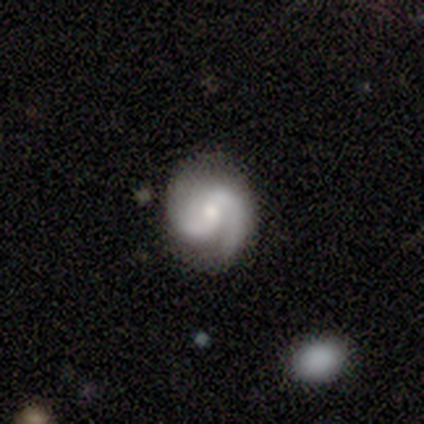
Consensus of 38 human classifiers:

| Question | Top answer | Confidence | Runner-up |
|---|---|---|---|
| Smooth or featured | featured or disk | 89% | smooth (5%) |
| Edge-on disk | no | 100% | — |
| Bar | weak | 47% | no (41%) |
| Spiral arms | yes | 97% | no (3%) |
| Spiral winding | medium | 58% | tight (27%) |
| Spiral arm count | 2 | 91% | 3 (3%) |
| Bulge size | moderate | 50% | small (35%) |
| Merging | none | 78% | minor disturbance (19%) |